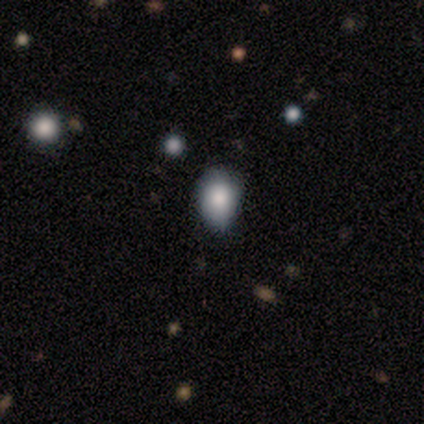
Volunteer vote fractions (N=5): Smooth or featured? smooth (80%)
How rounded? round (75%)
Merging? none (75%)